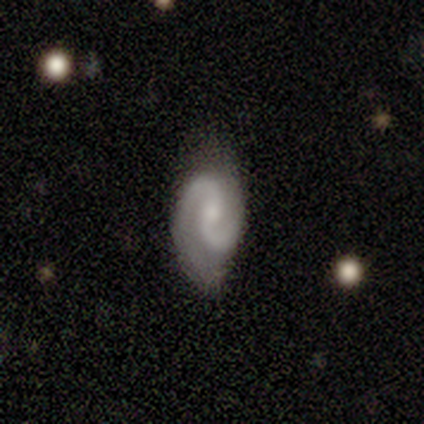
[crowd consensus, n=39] Morphology: type=featured or disk (87%); edge-on=no (100%); bar=no (53%); spiral arms=yes (100%); winding=medium (47%); arm count=2 (100%); bulge=small (59%); merging=none (68%).